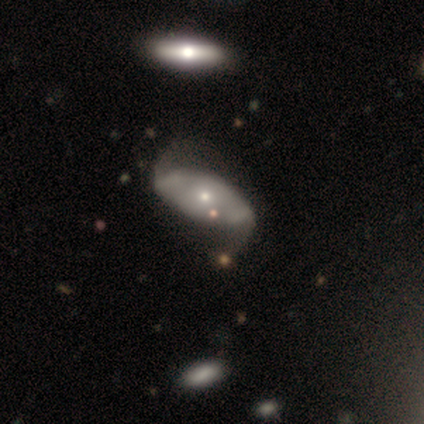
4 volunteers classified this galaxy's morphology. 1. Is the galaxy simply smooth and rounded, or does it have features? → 75% featured or disk, 25% smooth, 0% star or artifact.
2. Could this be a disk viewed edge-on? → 100% no, 0% yes.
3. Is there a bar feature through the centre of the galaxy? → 67% no, 33% strong, 0% weak.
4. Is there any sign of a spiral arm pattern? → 67% yes, 33% no.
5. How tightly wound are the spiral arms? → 50% tight (tied), 50% loose (tied), 0% medium.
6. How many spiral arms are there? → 100% 2, 0% 1, 0% 3, 0% 4, 0% more than 4, 0% can't tell.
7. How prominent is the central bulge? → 67% small, 33% moderate, 0% dominant, 0% large, 0% none.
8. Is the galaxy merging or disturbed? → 50% none (tied), 50% major disturbance (tied), 0% minor disturbance, 0% merger.